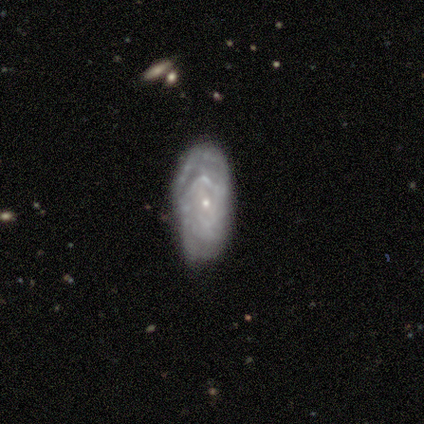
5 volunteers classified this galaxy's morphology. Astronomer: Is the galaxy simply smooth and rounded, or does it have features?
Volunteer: featured or disk — 100%.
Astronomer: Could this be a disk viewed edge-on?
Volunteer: no — 80%.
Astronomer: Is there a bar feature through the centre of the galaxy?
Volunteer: weak — 50%, tied with no at 50%.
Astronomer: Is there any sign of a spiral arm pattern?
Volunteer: yes — 75%.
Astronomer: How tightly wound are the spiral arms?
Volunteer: medium — 67%.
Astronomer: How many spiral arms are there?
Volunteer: can't tell — 100%.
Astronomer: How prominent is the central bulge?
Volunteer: small — 100%.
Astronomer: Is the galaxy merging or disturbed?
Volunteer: none — 60%.